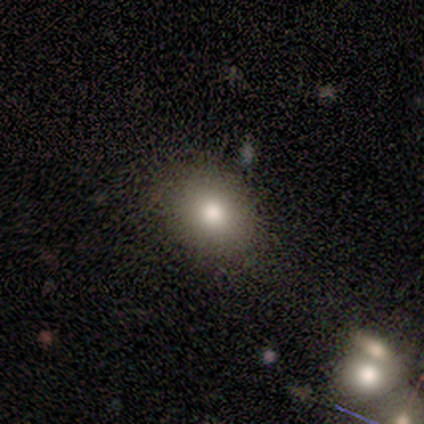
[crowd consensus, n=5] This appears to be a smooth galaxy with no disk features (80%) that is in between round and cigar-shaped (100%). Merging: none (60%).